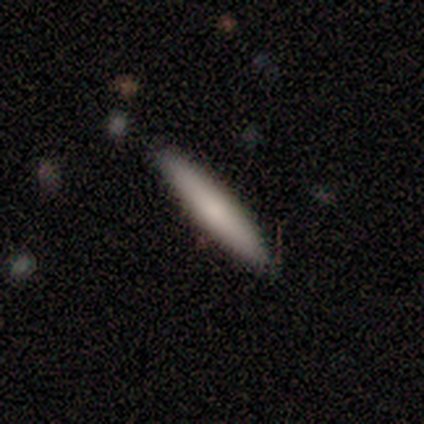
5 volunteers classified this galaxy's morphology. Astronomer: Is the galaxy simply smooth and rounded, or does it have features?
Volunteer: smooth — 100%.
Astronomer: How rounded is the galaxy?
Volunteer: cigar-shaped — 100%.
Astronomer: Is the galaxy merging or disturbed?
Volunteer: none — 100%.